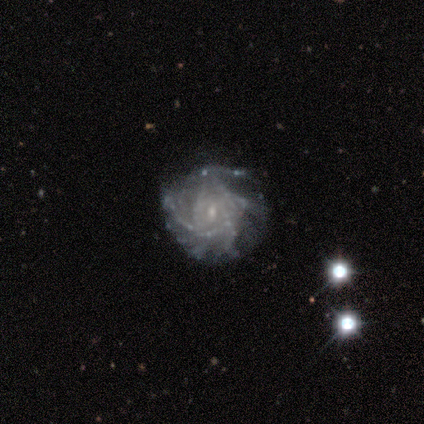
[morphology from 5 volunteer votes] Smooth or featured: featured or disk — 80% (smooth — 20%)
Edge-on disk: no — 100%
Bar: weak — 75% (strong — 25%)
Spiral arms: yes — 100%
Spiral winding: tight — 50% (tied with medium — 50%)
Spiral arm count: more than 4 — 100%
Bulge size: small — 75% (moderate — 25%)
Merging: none — 40% (tied with minor disturbance — 40%)